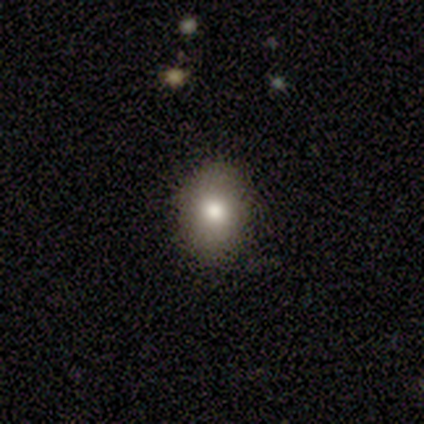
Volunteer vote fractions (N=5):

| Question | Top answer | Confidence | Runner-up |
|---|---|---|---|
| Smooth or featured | smooth | 100% | — |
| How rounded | round | 60% | in between (40%) |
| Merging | none | 100% | — |